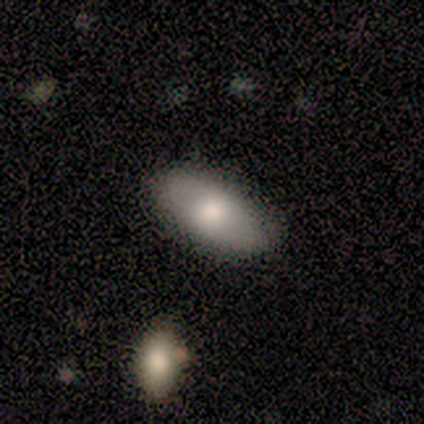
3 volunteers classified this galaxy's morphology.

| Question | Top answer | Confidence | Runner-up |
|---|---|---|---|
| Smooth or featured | featured or disk | 67% | smooth (33%) |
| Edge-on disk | yes | 100% | — |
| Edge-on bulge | rounded | 100% | — |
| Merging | none | 100% | — |